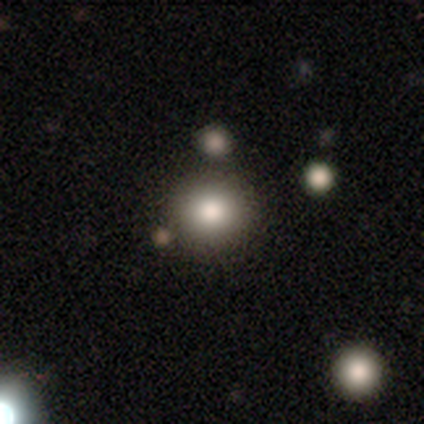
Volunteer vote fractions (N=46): Smooth or featured? smooth (63%)
How rounded? round (97%)
Merging? none (76%)